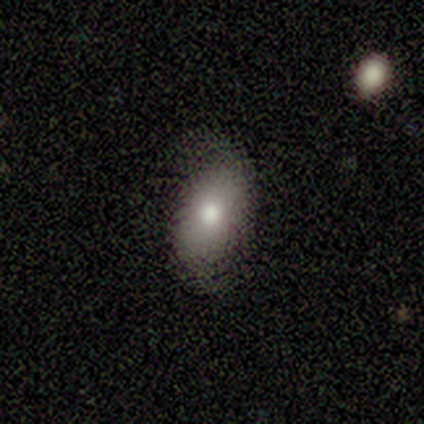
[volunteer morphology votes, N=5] Overall: smooth (60%; featured or disk 40%). How rounded: in between (67%; round 33%). Merging: none (80%).